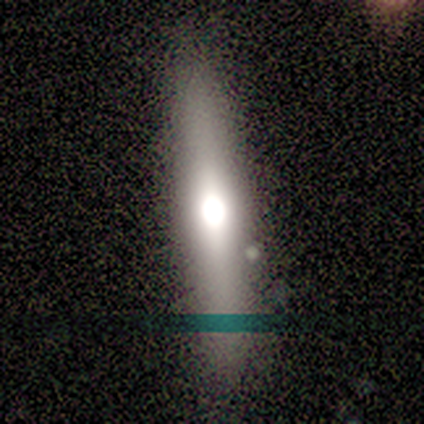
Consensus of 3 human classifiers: This is likely a featured or disk galaxy (67%). It is possibly viewed edge-on (50%, tied with no). Edge-on bulge: clearly rounded (100%). Merging: clearly none (100%).